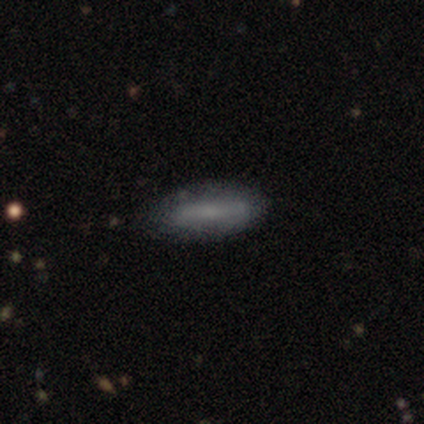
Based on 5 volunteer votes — Smooth or featured?
  - smooth: 100% *
  - featured or disk: 0%
  - star or artifact: 0%
How rounded?
  - in between: 80% *
  - cigar-shaped: 20%
  - round: 0%
Merging?
  - none: 40% * (tied)
  - merger: 40% * (tied)
  - minor disturbance: 20%
  - major disturbance: 0%